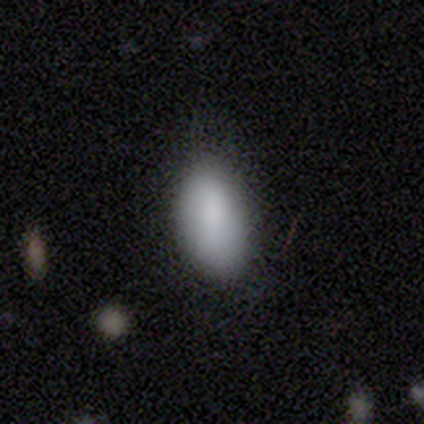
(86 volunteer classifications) Q: Smooth or featured?
A: smooth (87%); runner-up: star or artifact (8%)
Q: How rounded?
A: in between (95%); runner-up: round (4%)
Q: Merging?
A: none (75%); runner-up: minor disturbance (23%)